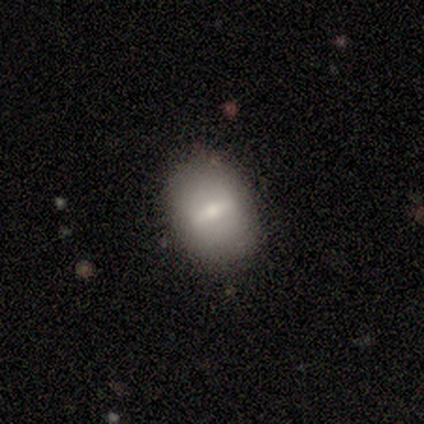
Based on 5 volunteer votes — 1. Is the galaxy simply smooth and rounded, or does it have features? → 60% smooth, 20% featured or disk, 20% star or artifact.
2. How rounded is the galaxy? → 100% in between, 0% round, 0% cigar-shaped.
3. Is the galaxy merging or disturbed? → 75% none, 25% minor disturbance, 0% major disturbance, 0% merger.